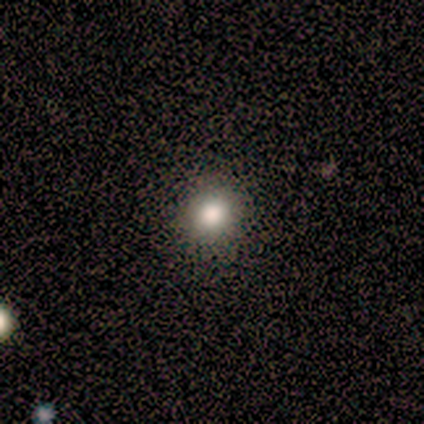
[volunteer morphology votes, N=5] Smooth or featured? 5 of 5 (100%) said smooth. How rounded? 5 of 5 (100%) said round. Merging? 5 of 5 (100%) said none.